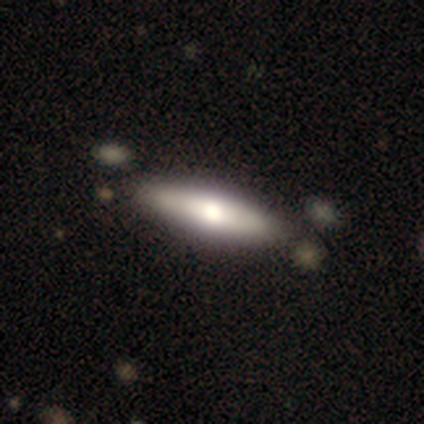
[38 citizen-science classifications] Smooth or featured? smooth (82%)
How rounded? cigar-shaped (71%)
Merging? none (89%)